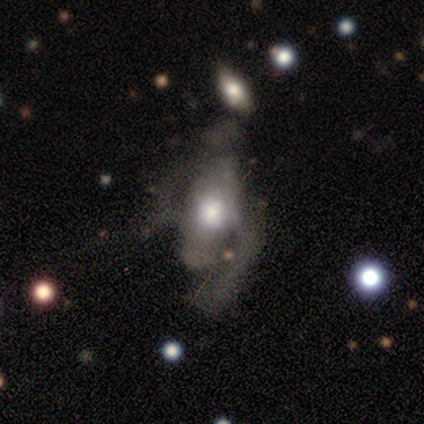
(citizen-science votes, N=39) Morphology: type=featured or disk (64%); edge-on=no (92%); bar=no (87%); spiral arms=no (83%); bulge=moderate (52%); merging=major disturbance (49%).